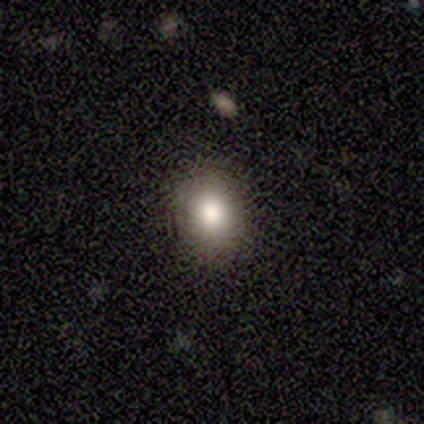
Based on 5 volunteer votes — smooth_or_featured: smooth (p=0.80) [alt: star or artifact p=0.20]
how_rounded: round (p=0.75) [alt: in between p=0.25]
merging: none (p=1.00)